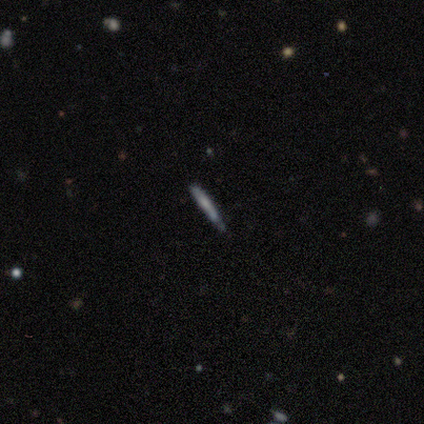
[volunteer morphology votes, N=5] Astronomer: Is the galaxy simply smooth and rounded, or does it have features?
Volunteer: featured or disk — 80%.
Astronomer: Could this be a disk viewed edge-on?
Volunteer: yes — 100%.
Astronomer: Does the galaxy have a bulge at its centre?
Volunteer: none — 100%.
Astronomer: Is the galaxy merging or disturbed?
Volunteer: none — 60% (runner-up: minor disturbance, 40%).